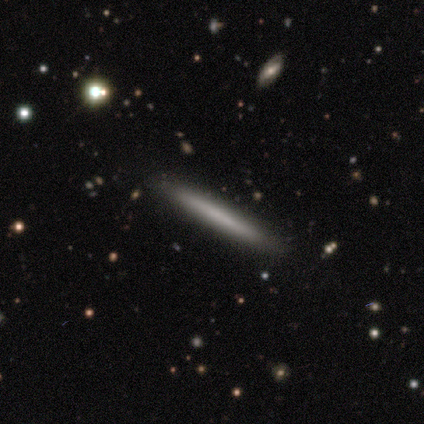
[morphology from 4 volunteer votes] Smooth or featured? 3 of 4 (75%) said smooth. How rounded? 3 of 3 (100%) said cigar-shaped. Merging? 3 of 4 (75%) said none.